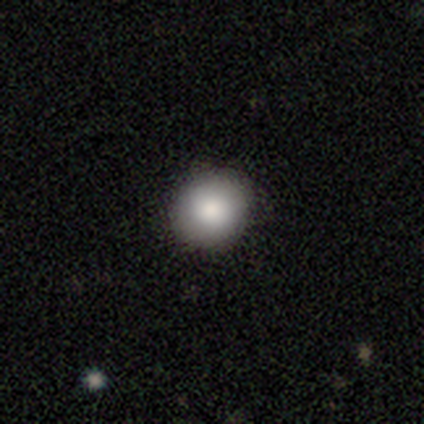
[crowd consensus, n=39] A smooth galaxy with no disk features (92%) that is round (89%).

Vote fractions:
- Smooth or featured? smooth: 92% / featured or disk: 5% / star or artifact: 3%
- How rounded? round: 89% / in between: 11% / cigar-shaped: 0%
- Merging? none: 95% / minor disturbance: 5% / major disturbance: 0% / merger: 0%